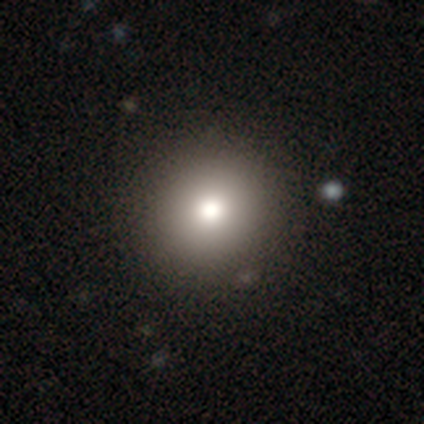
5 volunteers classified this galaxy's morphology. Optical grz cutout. It shows a smooth galaxy with no disk features (60%) that is round (100%). Merging: none (100%).